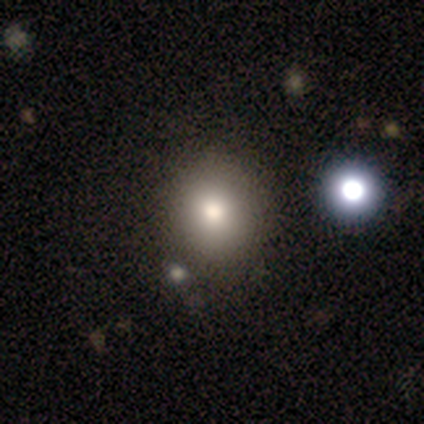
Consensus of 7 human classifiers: Smooth or featured?
  - smooth: 71% *
  - featured or disk: 14%
  - star or artifact: 14%
How rounded?
  - round: 60% *
  - in between: 40%
  - cigar-shaped: 0%
Merging?
  - none: 83% *
  - merger: 17%
  - minor disturbance: 0%
  - major disturbance: 0%